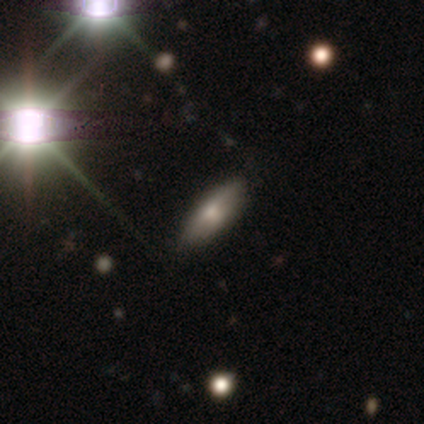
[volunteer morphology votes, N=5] Smooth or featured? 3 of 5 (60%) said featured or disk. Edge-on disk? 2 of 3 (67%) said yes. Edge-on bulge? 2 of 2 (100%) said rounded. Merging? 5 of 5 (100%) said none.